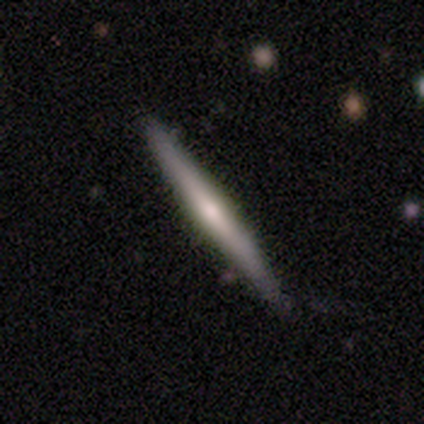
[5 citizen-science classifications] This is likely a featured or disk galaxy (60%). It is clearly viewed edge-on (100%). Edge-on bulge: likely rounded (67%). Merging: clearly none (100%).